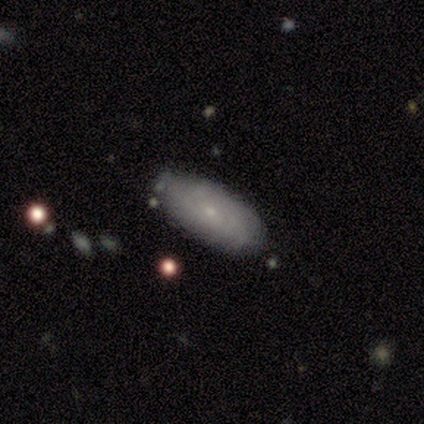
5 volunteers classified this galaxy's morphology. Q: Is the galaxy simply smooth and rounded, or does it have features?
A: smooth — 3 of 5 (60%).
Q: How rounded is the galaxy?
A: in between — 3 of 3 (100%).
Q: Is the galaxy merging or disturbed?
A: none — 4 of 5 (80%).